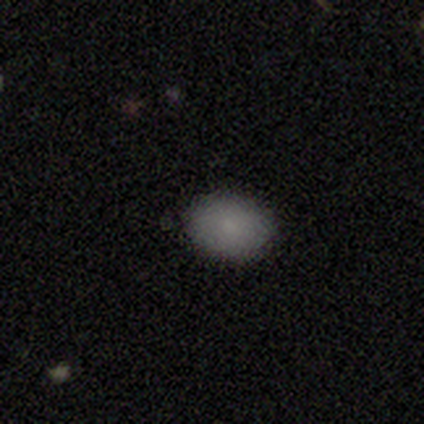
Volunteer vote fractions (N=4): Smooth or featured?
  - smooth: 100% *
  - featured or disk: 0%
  - star or artifact: 0%
How rounded?
  - round: 50% * (tied)
  - in between: 50% * (tied)
  - cigar-shaped: 0%
Merging?
  - none: 75% *
  - minor disturbance: 25%
  - major disturbance: 0%
  - merger: 0%